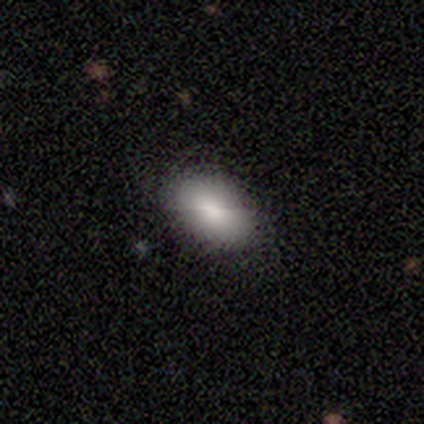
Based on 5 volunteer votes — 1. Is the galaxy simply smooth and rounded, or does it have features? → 80% smooth, 20% featured or disk, 0% star or artifact.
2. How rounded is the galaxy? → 100% in between, 0% round, 0% cigar-shaped.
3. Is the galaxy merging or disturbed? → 100% none, 0% minor disturbance, 0% major disturbance, 0% merger.